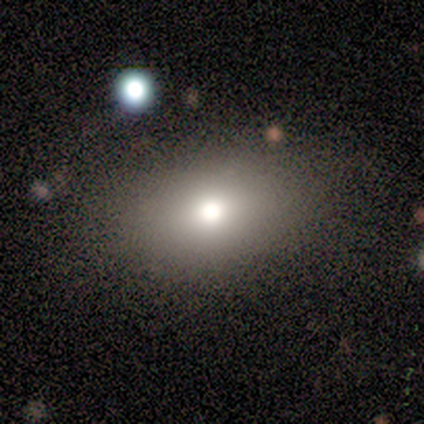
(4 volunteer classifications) smooth_or_featured: smooth (p=1.00)
how_rounded: in between (p=0.75) [alt: round p=0.25]
merging: none (p=0.50) [alt: minor disturbance p=0.25]